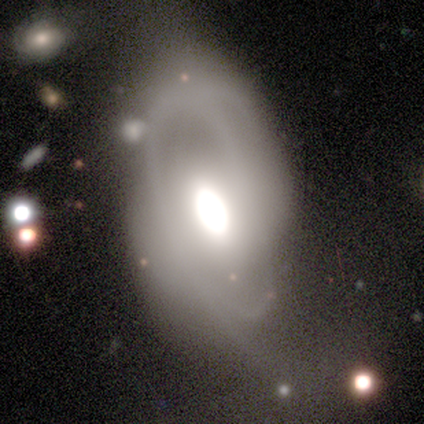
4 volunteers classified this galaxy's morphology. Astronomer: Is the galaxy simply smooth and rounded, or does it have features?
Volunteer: smooth — 50%, tied with featured or disk at 50%.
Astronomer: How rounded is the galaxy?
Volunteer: in between — 100%.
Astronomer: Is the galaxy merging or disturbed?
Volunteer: minor disturbance — 50%.